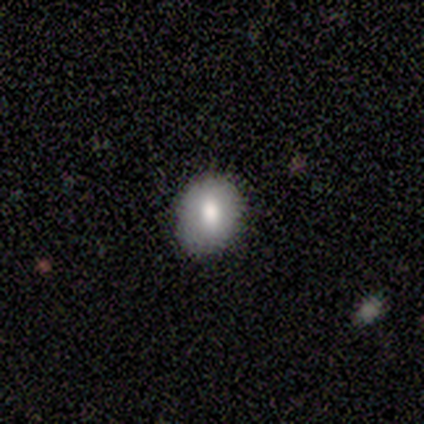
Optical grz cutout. It shows a smooth galaxy with no disk features (100%) that is round (67%). Merging: none (100%).